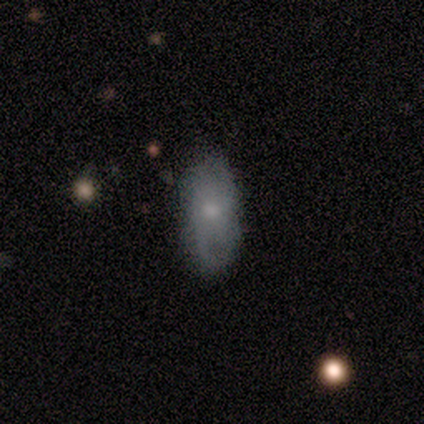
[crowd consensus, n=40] A smooth galaxy with no disk features (55%) that is in between round and cigar-shaped (86%). Merging: none (76%).